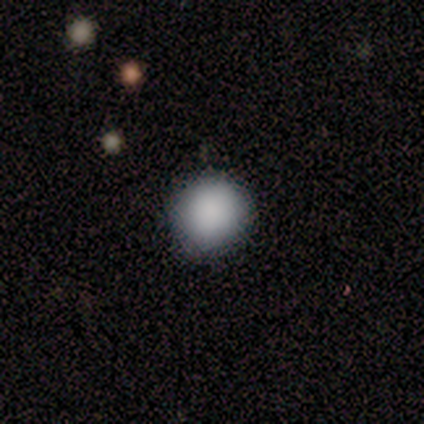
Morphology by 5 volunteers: type=smooth (100%); roundness=round (100%); merging=none (80%).